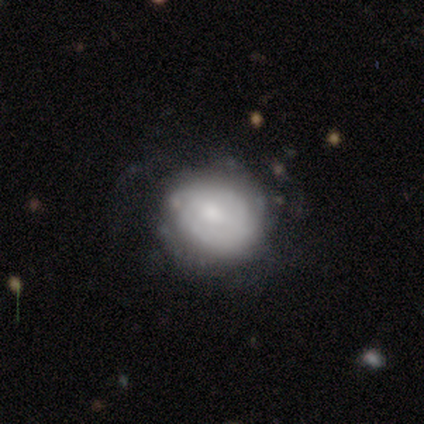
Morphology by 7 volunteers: Smooth or featured? 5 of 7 (71%) said smooth. How rounded? 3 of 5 (60%) said round. Merging? 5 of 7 (71%) said none.